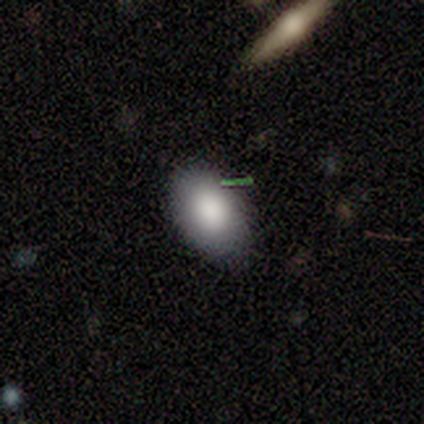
smooth_or_featured: smooth (p=1.00)
how_rounded: in between (p=0.80) [alt: round p=0.20]
merging: none (p=1.00)